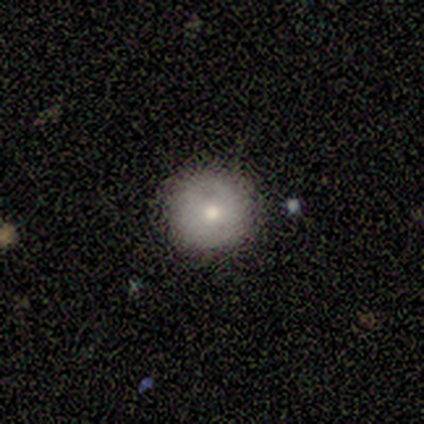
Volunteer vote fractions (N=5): smooth_or_featured: smooth (p=1.00)
how_rounded: round (p=1.00)
merging: none (p=1.00)